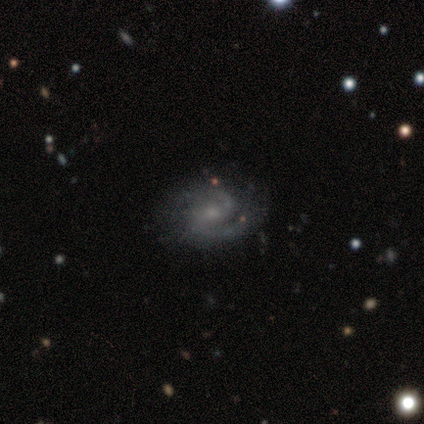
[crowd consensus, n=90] A featured or disk galaxy (90%) with a weak bar (45%), 2 (91%) medium (51%) spiral arms (96%) and a small central bulge (69%).

Vote fractions:
- Smooth or featured? featured or disk: 90% / smooth: 7% / star or artifact: 3%
- Edge-on disk? no: 99% / yes: 1%
- Bar? weak: 45% / no: 44% / strong: 11%
- Spiral arms? yes: 96% / no: 4%
- Spiral winding? medium: 51% / tight: 35% / loose: 14%
- Spiral arm count? 2: 91% / can't tell: 4% / 3: 3% / 1: 1% / 4: 1% / more than 4: 0%
- Bulge size? small: 69% / moderate: 21% / none: 5% / large: 4% / dominant: 1%
- Merging? none: 79% / minor disturbance: 13% / major disturbance: 7% / merger: 1%